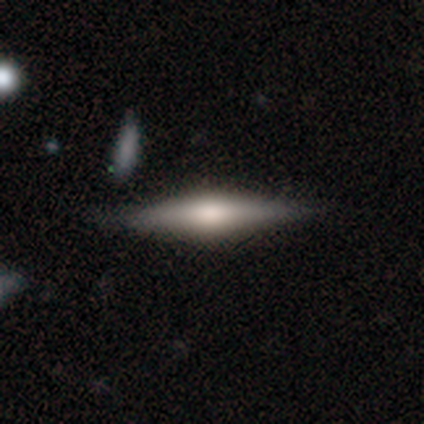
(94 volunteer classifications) Morphology: type=featured or disk (71%); edge-on=yes (96%); edge-on bulge=rounded (83%); merging=none (84%).